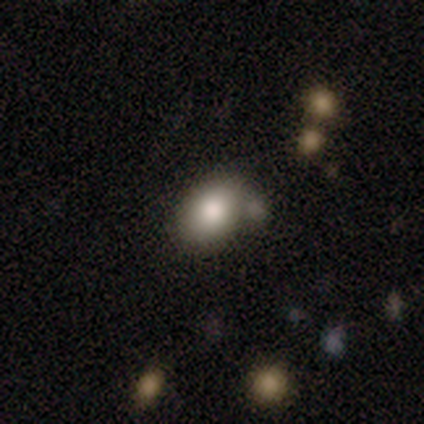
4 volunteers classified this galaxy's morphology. Smooth or featured: smooth — 100%
How rounded: in between — 100%
Merging: none — 50% (minor disturbance — 25%)